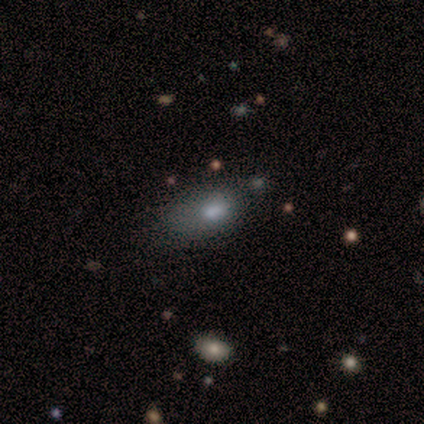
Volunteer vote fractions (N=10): A smooth galaxy with no disk features (90%) that is in between round and cigar-shaped (100%).

Vote fractions:
- Smooth or featured? smooth: 90% / featured or disk: 10% / star or artifact: 0%
- How rounded? in between: 100% / round: 0% / cigar-shaped: 0%
- Merging? minor disturbance: 70% / none: 30% / major disturbance: 0% / merger: 0%